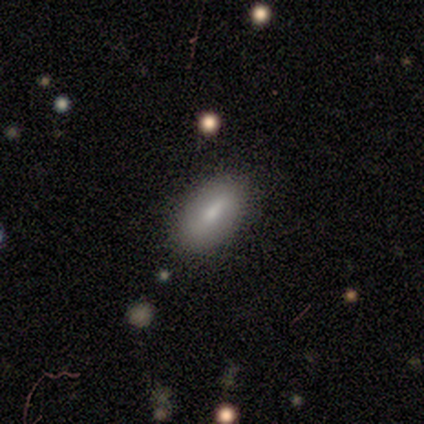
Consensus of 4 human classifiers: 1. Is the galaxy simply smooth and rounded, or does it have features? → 50% smooth (tied), 50% featured or disk (tied), 0% star or artifact.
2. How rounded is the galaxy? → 100% in between, 0% round, 0% cigar-shaped.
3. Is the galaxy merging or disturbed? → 75% none, 25% minor disturbance, 0% major disturbance, 0% merger.